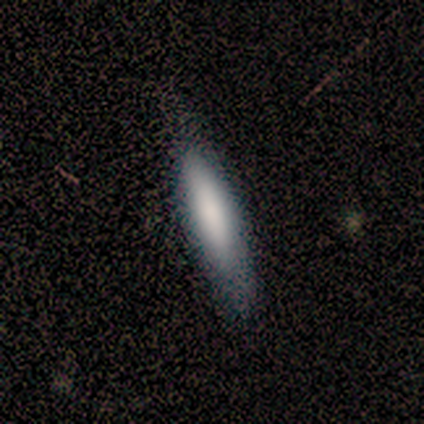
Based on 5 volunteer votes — smooth-or-featured: smooth: 100% | featured or disk: 0% | star or artifact: 0%
  how-rounded: cigar-shaped: 80% | in between: 20% | round: 0%
  merging: none: 60% | minor disturbance: 20% | major disturbance: 20% | merger: 0%